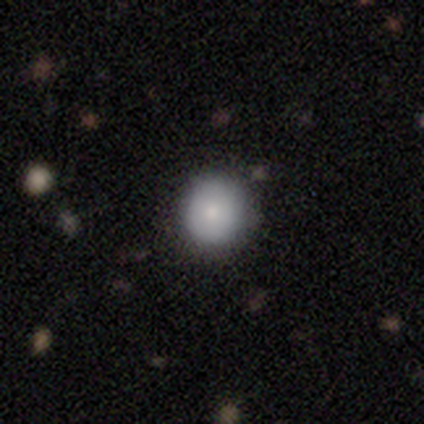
Q: Smooth or featured?
A: smooth (100%)
Q: How rounded?
A: round (100%)
Q: Merging?
A: none (75%); runner-up: major disturbance (25%)